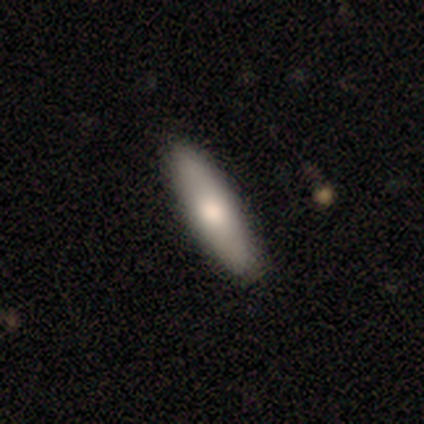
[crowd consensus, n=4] Smooth or featured?
  - smooth: 100% *
  - featured or disk: 0%
  - star or artifact: 0%
How rounded?
  - cigar-shaped: 100% *
  - round: 0%
  - in between: 0%
Merging?
  - none: 100% *
  - minor disturbance: 0%
  - major disturbance: 0%
  - merger: 0%